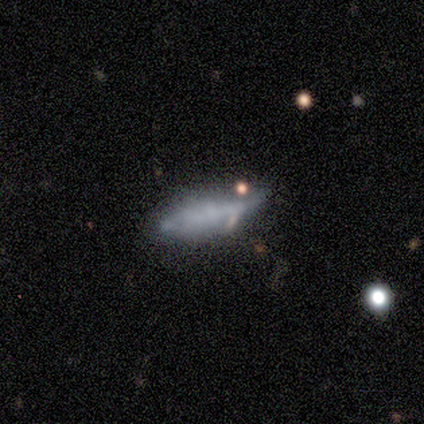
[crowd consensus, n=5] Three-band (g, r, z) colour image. It shows a smooth galaxy with no disk features (60%) that is cigar-shaped (67%). Merging: none (100%).